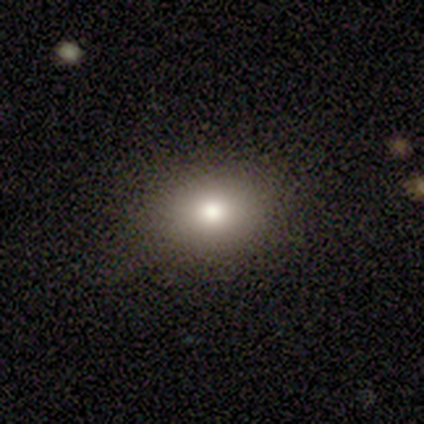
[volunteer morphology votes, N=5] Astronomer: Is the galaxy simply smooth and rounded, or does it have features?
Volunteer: smooth — 80%.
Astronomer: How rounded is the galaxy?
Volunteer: in between — 75%.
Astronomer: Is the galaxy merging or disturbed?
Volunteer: minor disturbance — 60%.